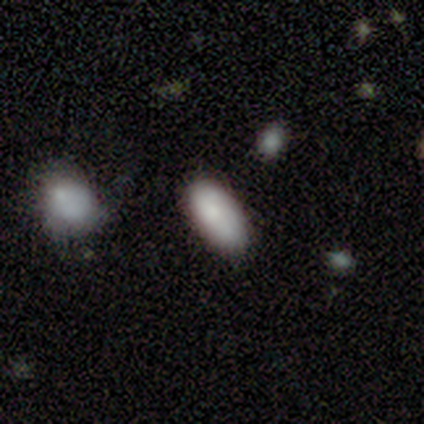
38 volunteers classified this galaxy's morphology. This appears to be a smooth galaxy with no disk features (84%) that is in between round and cigar-shaped (91%). Merging: none (71%).